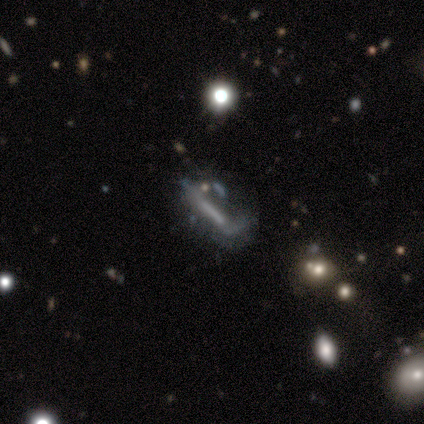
Smooth or featured? 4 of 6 (67%) said featured or disk. Edge-on disk? 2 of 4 (50%, tied with no) said yes. Edge-on bulge? 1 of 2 (50%, tied with none) said boxy. Merging? 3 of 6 (50%) said major disturbance.